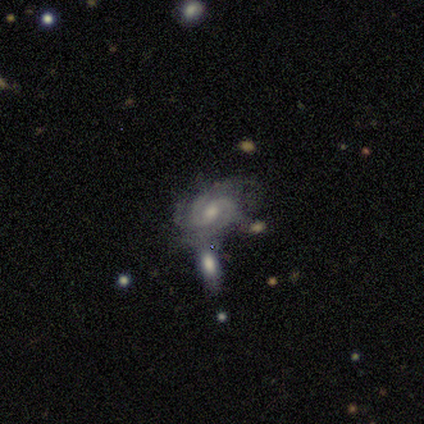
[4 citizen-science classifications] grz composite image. It shows a featured or disk galaxy (50%) with a weak bar (50%, tied with no), 4 (50%, tied with more than 4) tight (50%, tied with medium) spiral arms (100%) and a small central bulge (100%). Merging: none (33%, tied with major disturbance and merger).